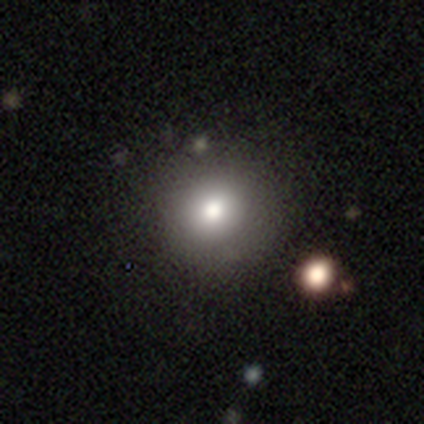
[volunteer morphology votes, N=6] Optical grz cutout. It shows a smooth galaxy with no disk features (100%) that is round (100%). Merging: none (100%).